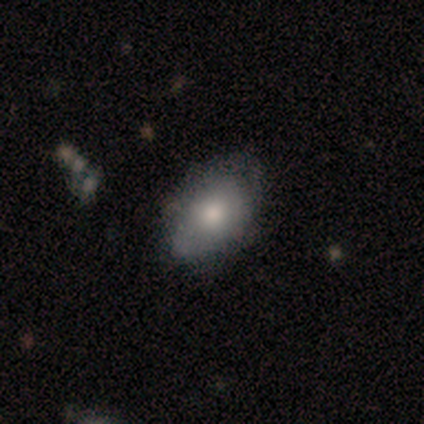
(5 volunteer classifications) Smooth or featured?
  - smooth: 80% *
  - featured or disk: 20%
  - star or artifact: 0%
How rounded?
  - in between: 100% *
  - round: 0%
  - cigar-shaped: 0%
Merging?
  - none: 100% *
  - minor disturbance: 0%
  - major disturbance: 0%
  - merger: 0%